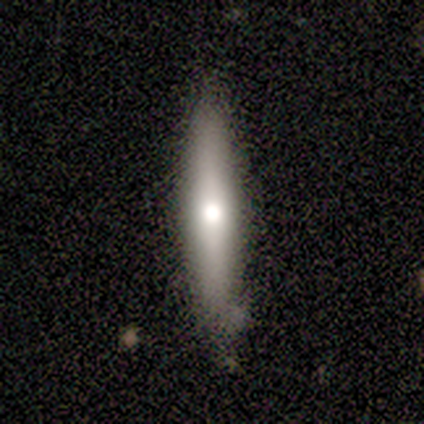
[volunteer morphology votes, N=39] A smooth galaxy with no disk features (56%) that is cigar-shaped (91%). Merging: none (89%).